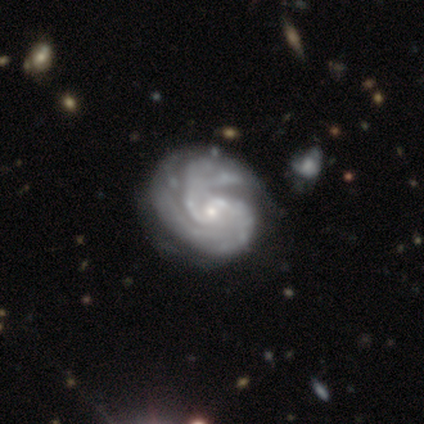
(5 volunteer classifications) Smooth or featured?
  - featured or disk: 100% *
  - smooth: 0%
  - star or artifact: 0%
Edge-on disk?
  - no: 80% *
  - yes: 20%
Bar?
  - no: 75% *
  - weak: 25%
  - strong: 0%
Spiral arms?
  - yes: 100% *
  - no: 0%
Spiral winding?
  - tight: 75% *
  - loose: 25%
  - medium: 0%
Spiral arm count?
  - can't tell: 75% *
  - 2: 25%
  - 1: 0%
  - 3: 0%
  - 4: 0%
  - more than 4: 0%
Bulge size?
  - small: 100% *
  - dominant: 0%
  - large: 0%
  - moderate: 0%
  - none: 0%
Merging?
  - none: 40% * (tied)
  - minor disturbance: 40% * (tied)
  - major disturbance: 20%
  - merger: 0%